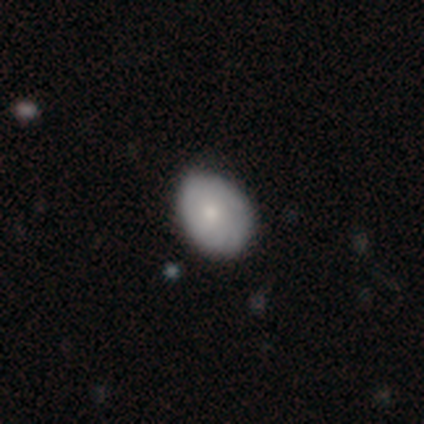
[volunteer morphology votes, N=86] Volunteers were most divided on "merging": none: 70%, minor disturbance: 30%, major disturbance: 0%, merger: 0%. More confident: smooth or featured — smooth (73%); how rounded — in between (73%).